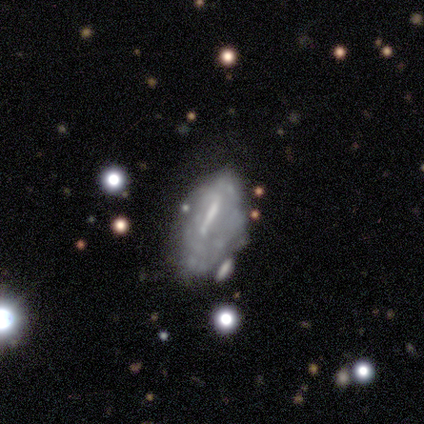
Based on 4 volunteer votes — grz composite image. It shows a featured or disk galaxy (100%) with a strong bar (100%), no spiral arms (75%) and no central bulge (50%). Merging: major disturbance (50%).